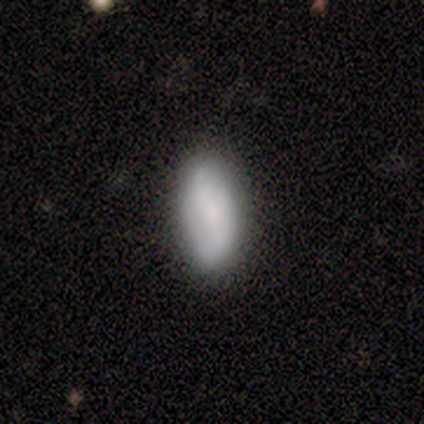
Smooth or featured?
  - smooth: 100% *
  - featured or disk: 0%
  - star or artifact: 0%
How rounded?
  - in between: 80% *
  - cigar-shaped: 20%
  - round: 0%
Merging?
  - none: 80% *
  - minor disturbance: 20%
  - major disturbance: 0%
  - merger: 0%